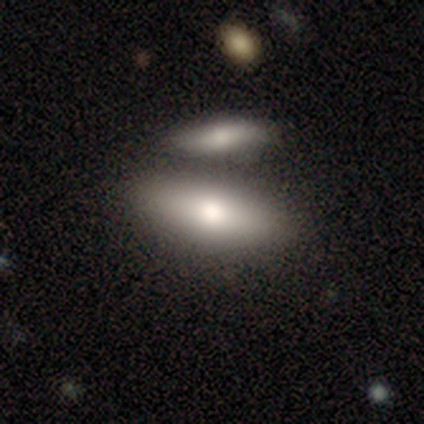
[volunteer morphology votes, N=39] Smooth or featured: smooth — 69% (featured or disk — 26%)
How rounded: in between — 74% (cigar-shaped — 26%)
Merging: none — 46% (merger — 43%)